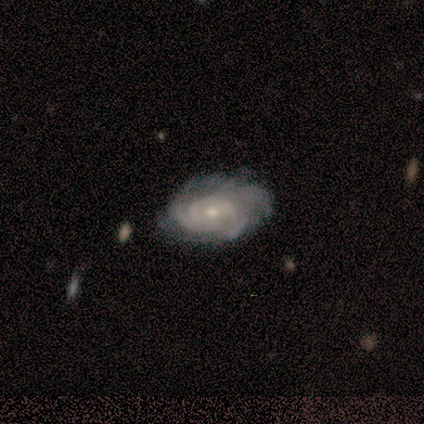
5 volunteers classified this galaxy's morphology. Smooth or featured: featured or disk — 100%
Edge-on disk: no — 100%
Bar: no — 80% (weak — 20%)
Spiral arms: yes — 100%
Spiral winding: tight — 80% (medium — 20%)
Spiral arm count: can't tell — 40% (2 — 20%)
Bulge size: small — 60% (moderate — 40%)
Merging: none — 60% (minor disturbance — 40%)